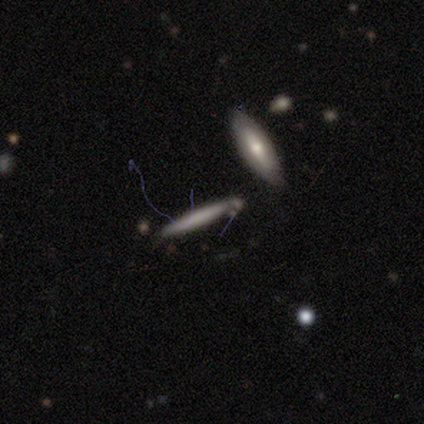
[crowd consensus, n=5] A smooth galaxy with no disk features (80%) that is cigar-shaped (75%). Merging: minor disturbance (60%).